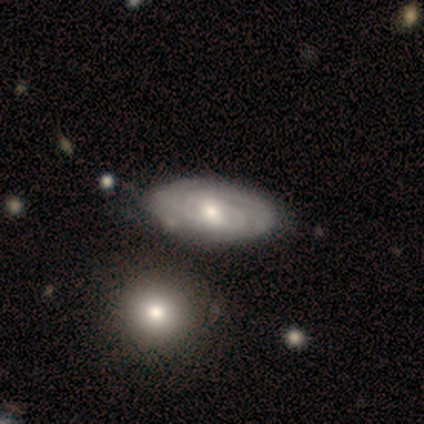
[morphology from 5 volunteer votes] Overall: featured or disk (60%; smooth 40%). Edge-on disk: no (100%). Bar: no (67%; strong 33%). Spiral arms: yes (100%). Spiral arm count: 2 (67%; 1 33%). Spiral winding: tight (67%; medium 33%). Bulge size: moderate (67%; small 33%). Merging: none (60%; minor disturbance 20%).